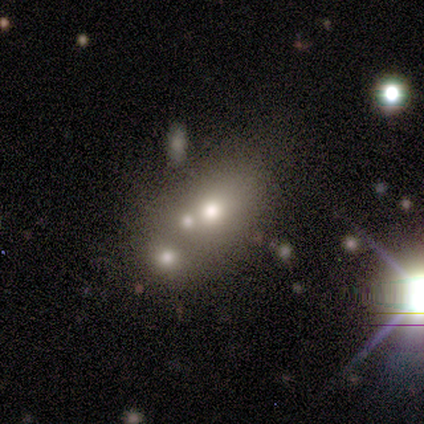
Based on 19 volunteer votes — A smooth galaxy with no disk features (68%) that is round (54%).

Vote fractions:
- Smooth or featured? smooth: 68% / featured or disk: 16% / star or artifact: 16%
- How rounded? round: 54% / in between: 46% / cigar-shaped: 0%
- Merging? merger: 69% / none: 25% / major disturbance: 6% / minor disturbance: 0%